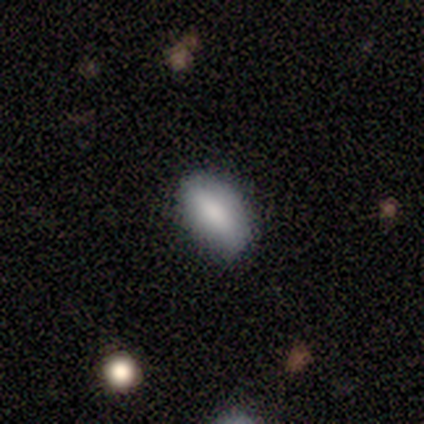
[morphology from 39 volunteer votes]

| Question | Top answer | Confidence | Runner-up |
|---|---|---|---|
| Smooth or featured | smooth | 92% | featured or disk (8%) |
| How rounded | in between | 92% | cigar-shaped (6%) |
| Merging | none | 87% | minor disturbance (8%) |